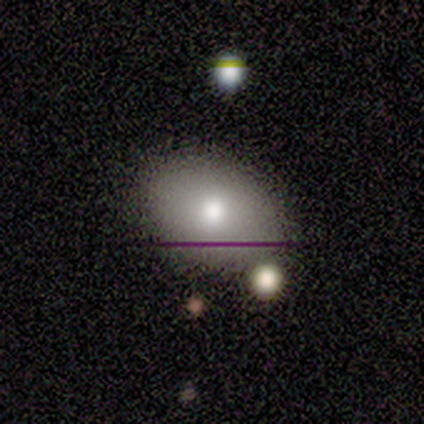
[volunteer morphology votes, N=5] Q: Smooth or featured?
A: smooth (80%); runner-up: featured or disk (20%)
Q: How rounded?
A: in between (100%)
Q: Merging?
A: none (100%)